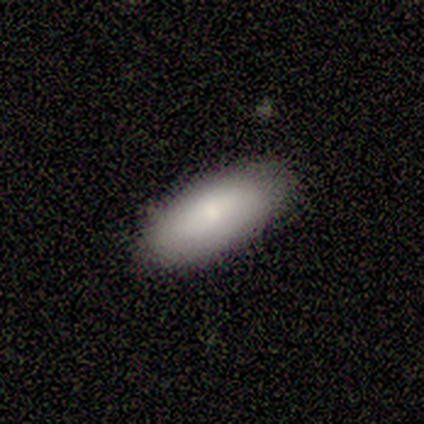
Q: Smooth or featured?
A: smooth (75%); runner-up: featured or disk (25%)
Q: How rounded?
A: in between (83%); runner-up: cigar-shaped (17%)
Q: Merging?
A: none (88%); runner-up: minor disturbance (12%)